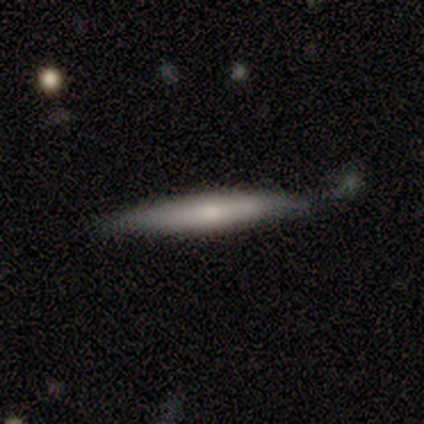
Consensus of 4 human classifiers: Smooth or featured? 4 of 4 (100%) said smooth. How rounded? 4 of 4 (100%) said cigar-shaped. Merging? 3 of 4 (75%) said none.